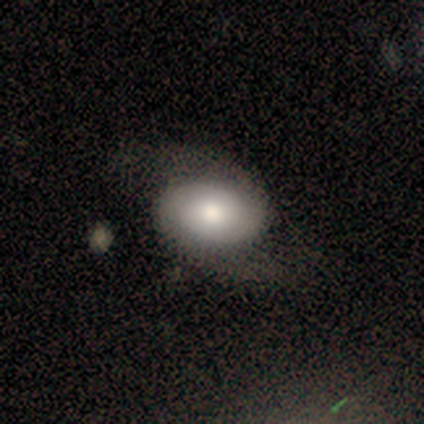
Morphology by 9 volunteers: Overall: featured or disk (78%). Edge-on disk: no (100%). Bar: no (86%). Spiral arms: yes (86%). Spiral arm count: 2 (100%). Spiral winding: loose (50%; medium 33%). Bulge size: moderate (57%; large 29%). Merging: none (67%).